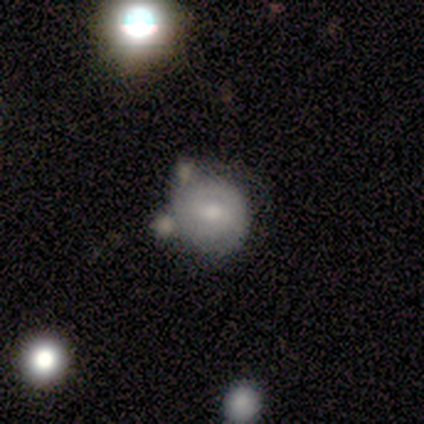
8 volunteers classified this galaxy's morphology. smooth-or-featured: smooth: 62% | featured or disk: 38% | star or artifact: 0%
  how-rounded: round: 60% | in between: 40% | cigar-shaped: 0%
  merging: none: 62% | merger: 25% | minor disturbance: 12% | major disturbance: 0%